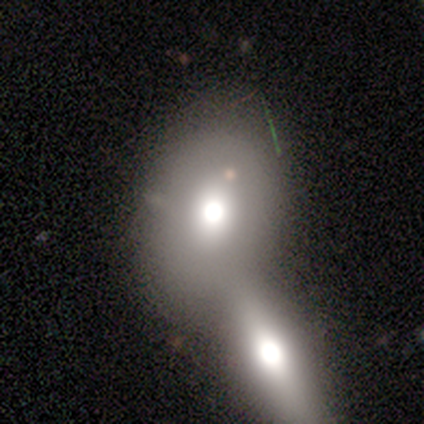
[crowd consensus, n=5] Q: Smooth or featured?
A: smooth (100%)
Q: How rounded?
A: in between (80%); runner-up: round (20%)
Q: Merging?
A: merger (100%)